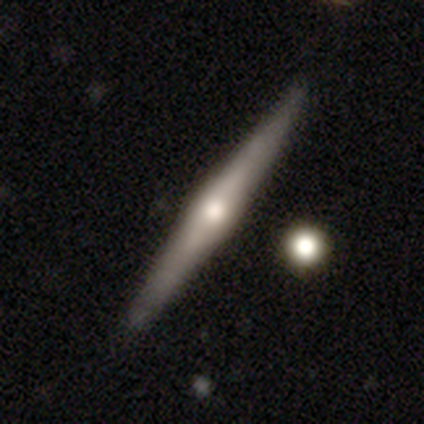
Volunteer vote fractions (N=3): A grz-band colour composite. It shows a featured or disk galaxy (67%) viewed edge-on (100%) with a rounded central bulge (100%). Merging: none (67%).